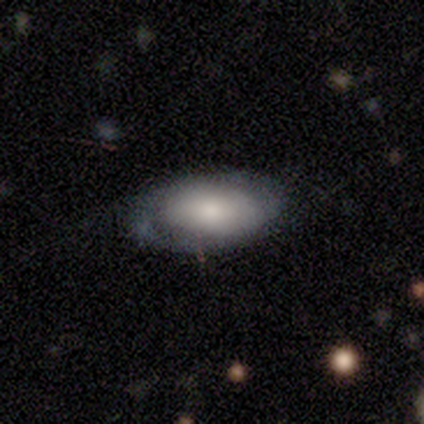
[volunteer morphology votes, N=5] Q: Smooth or featured?
A: smooth (60%); runner-up: featured or disk (40%)
Q: How rounded?
A: in between (100%)
Q: Merging?
A: none (100%)